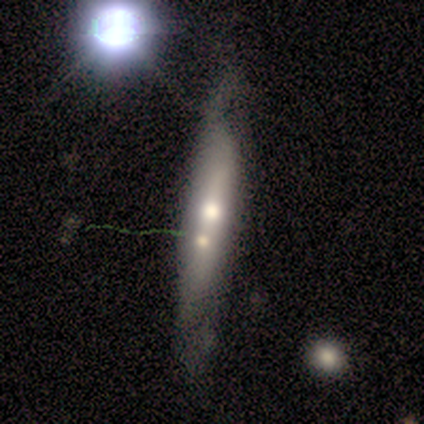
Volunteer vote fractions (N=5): featured or disk 60%, smooth 40%, star or artifact 0%. Down the decision tree: edge-on disk — yes (100%); edge-on bulge — none (67%); merging — none (60%).